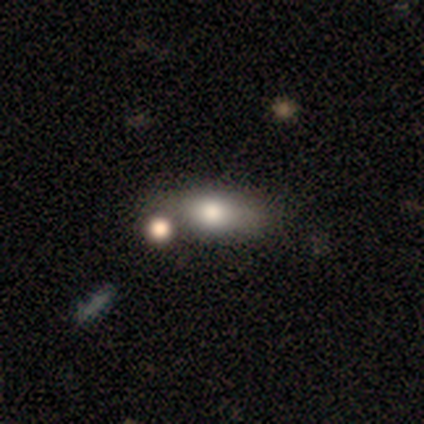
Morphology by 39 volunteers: Smooth or featured? 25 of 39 (64%) said smooth. How rounded? 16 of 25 (64%) said in between. Merging? 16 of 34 (47%) said none.